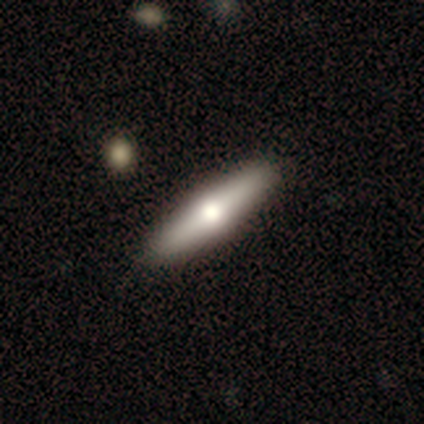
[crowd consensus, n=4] A smooth galaxy with no disk features (50%, tied with featured or disk) that is cigar-shaped (100%).

Vote fractions:
- Smooth or featured? smooth: 50% (tied) / featured or disk: 50% (tied) / star or artifact: 0%
- How rounded? cigar-shaped: 100% / round: 0% / in between: 0%
- Merging? none: 100% / minor disturbance: 0% / major disturbance: 0% / merger: 0%